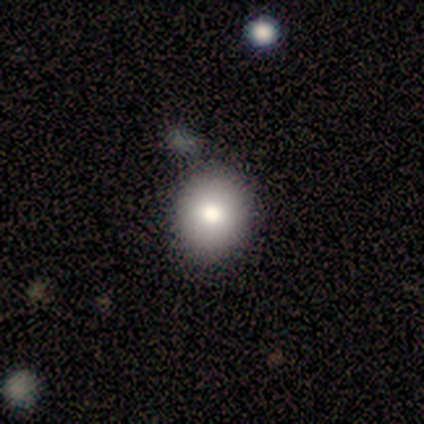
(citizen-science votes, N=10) smooth-or-featured: smooth: 90% | featured or disk: 10% | star or artifact: 0%
  how-rounded: round: 67% | in between: 33% | cigar-shaped: 0%
  merging: none: 80% | minor disturbance: 10% | merger: 10% | major disturbance: 0%